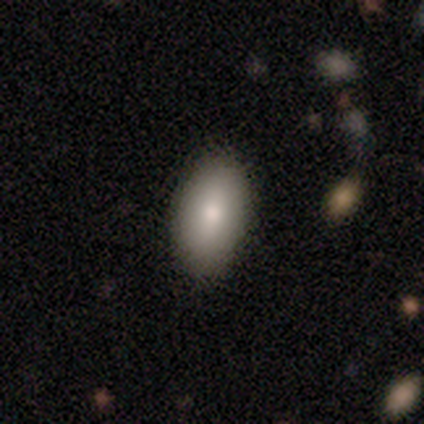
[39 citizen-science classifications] Smooth or featured? 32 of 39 (82%) said smooth. How rounded? 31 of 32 (97%) said in between. Merging? 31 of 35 (89%) said none.